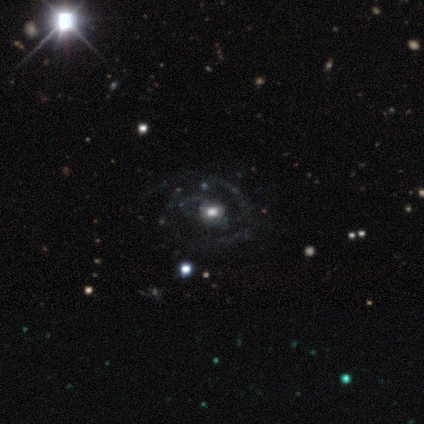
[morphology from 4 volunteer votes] Q: Smooth or featured?
A: featured or disk (100%)
Q: Edge-on disk?
A: no (75%); runner-up: yes (25%)
Q: Bar?
A: no (100%)
Q: Spiral arms?
A: no (67%); runner-up: yes (33%)
Q: Bulge size?
A: moderate (100%)
Q: Merging?
A: minor disturbance (75%); runner-up: none (25%)